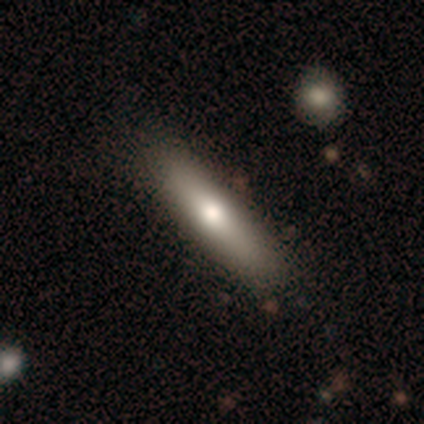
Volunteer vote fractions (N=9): smooth-or-featured: smooth: 56% | featured or disk: 33% | star or artifact: 11%
  how-rounded: cigar-shaped: 100% | round: 0% | in between: 0%
  merging: none: 88% | minor disturbance: 12% | major disturbance: 0% | merger: 0%